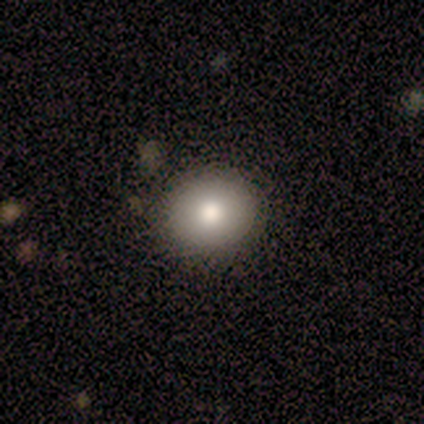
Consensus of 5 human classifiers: Smooth or featured? smooth (80%)
How rounded? round (50%, tied with in between)
Merging? none (75%)